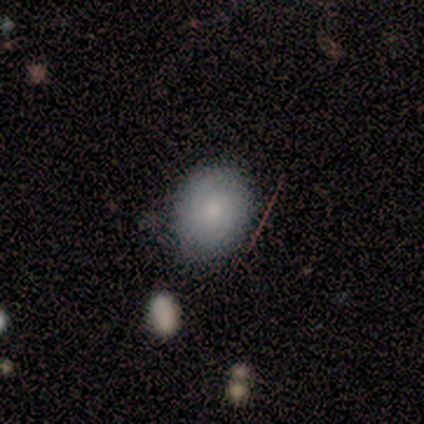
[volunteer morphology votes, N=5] smooth_or_featured: smooth (p=0.60) [alt: featured or disk p=0.40]
how_rounded: in between (p=0.67) [alt: round p=0.33]
merging: none (p=1.00)